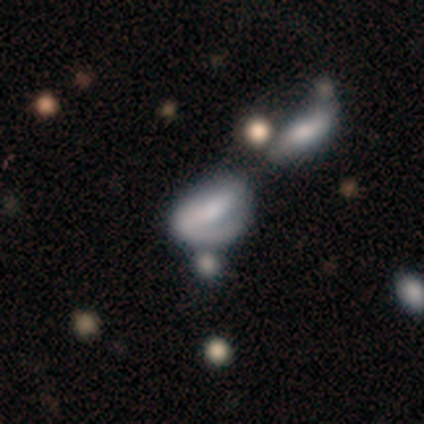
smooth_or_featured: smooth (p=0.60) [alt: featured or disk p=0.40]
how_rounded: in between (p=0.67) [alt: round p=0.33]
merging: none (p=0.60) [alt: major disturbance p=0.20]